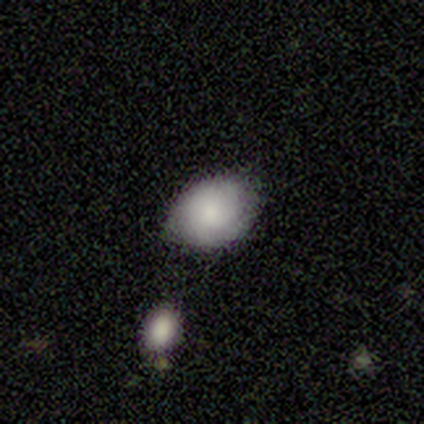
This is clearly a smooth galaxy (80%). How rounded: likely in between (75%). Merging: likely none (75%).